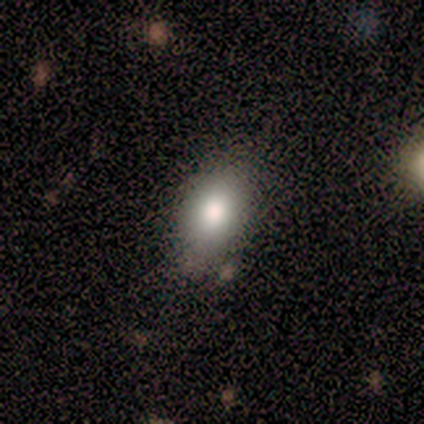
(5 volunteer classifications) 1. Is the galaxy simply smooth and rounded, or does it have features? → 80% smooth, 20% star or artifact, 0% featured or disk.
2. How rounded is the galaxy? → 75% in between, 25% round, 0% cigar-shaped.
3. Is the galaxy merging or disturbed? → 100% none, 0% minor disturbance, 0% major disturbance, 0% merger.